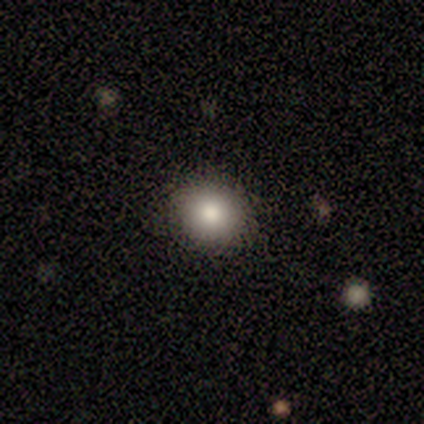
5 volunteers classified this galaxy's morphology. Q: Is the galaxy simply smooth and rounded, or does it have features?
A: smooth — 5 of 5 (100%).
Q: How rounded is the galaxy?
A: round — 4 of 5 (80%).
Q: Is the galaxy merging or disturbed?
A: none — 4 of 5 (80%).